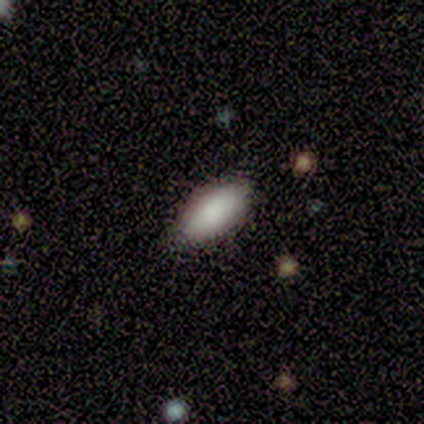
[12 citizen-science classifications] Overall: smooth (83%). How rounded: in between (80%). Merging: none (100%).